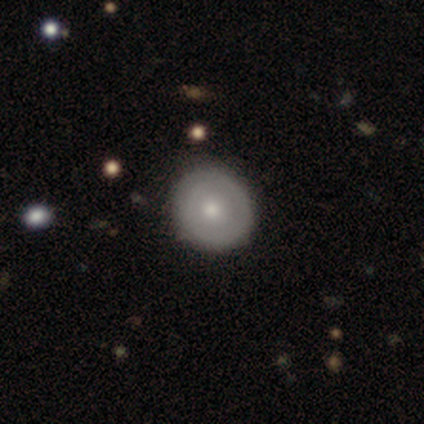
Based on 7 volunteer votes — Smooth or featured? 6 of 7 (86%) said smooth. How rounded? 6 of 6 (100%) said round. Merging? 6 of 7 (86%) said none.